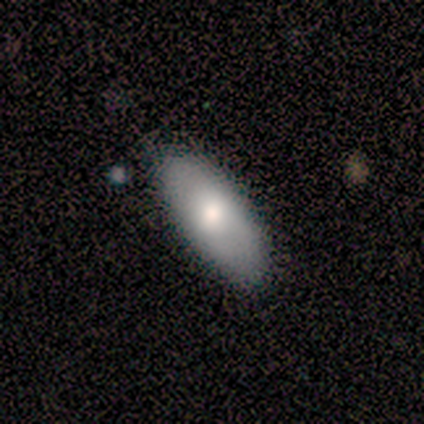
A smooth galaxy with no disk features (100%) that is in between round and cigar-shaped (100%).

Vote fractions:
- Smooth or featured? smooth: 100% / featured or disk: 0% / star or artifact: 0%
- How rounded? in between: 100% / round: 0% / cigar-shaped: 0%
- Merging? none: 100% / minor disturbance: 0% / major disturbance: 0% / merger: 0%